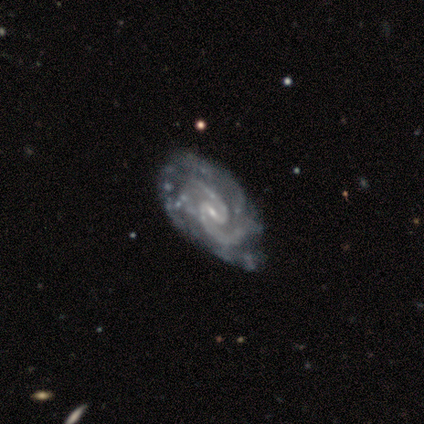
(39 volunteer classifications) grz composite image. It shows a featured or disk galaxy (100%) with a weak bar (69%), 2 (76%) medium (61%) spiral arms (97%) and a small central bulge (77%). Merging: none (36%).